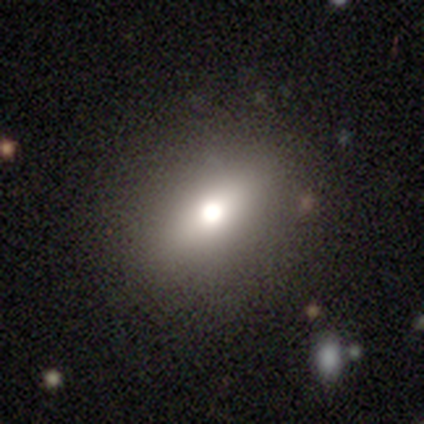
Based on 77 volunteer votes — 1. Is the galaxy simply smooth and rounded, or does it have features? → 75% smooth, 17% featured or disk, 8% star or artifact.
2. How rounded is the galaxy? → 71% in between, 19% round, 10% cigar-shaped.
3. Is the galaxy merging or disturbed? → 42% none, 7% merger, 3% minor disturbance, 0% major disturbance.